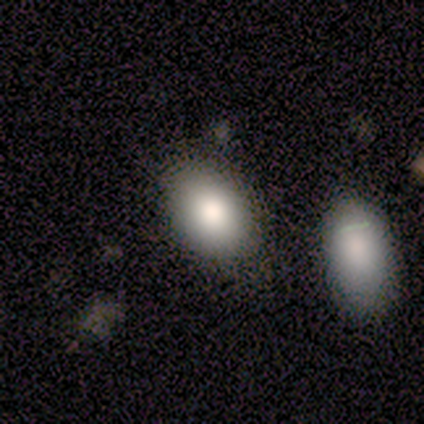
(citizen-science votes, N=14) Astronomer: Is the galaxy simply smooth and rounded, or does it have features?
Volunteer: smooth — 71%.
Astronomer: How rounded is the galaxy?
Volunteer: in between — 90%.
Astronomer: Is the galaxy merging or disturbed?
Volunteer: none — 73%.